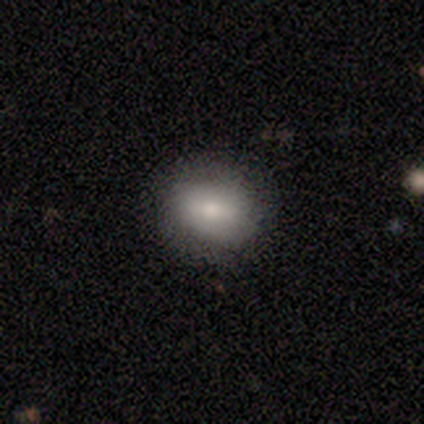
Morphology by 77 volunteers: smooth 82%, featured or disk 16%, star or artifact 3%. Down the decision tree: how rounded — in between (52%); merging — none (47%).